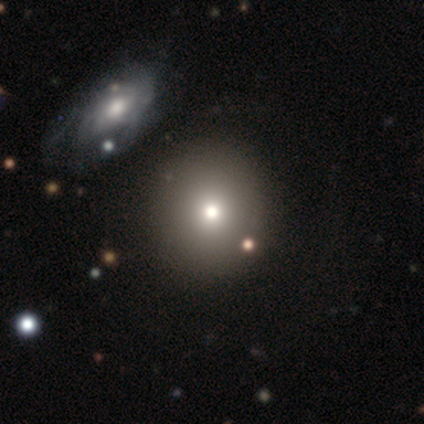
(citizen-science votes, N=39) Smooth or featured?
  - smooth: 72% *
  - featured or disk: 23%
  - star or artifact: 5%
How rounded?
  - round: 89% *
  - in between: 11%
  - cigar-shaped: 0%
Merging?
  - none: 43% *
  - merger: 22%
  - minor disturbance: 8%
  - major disturbance: 3%